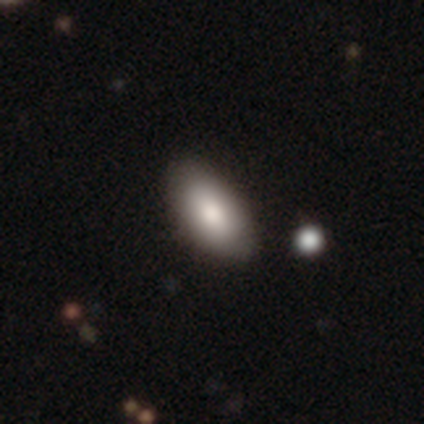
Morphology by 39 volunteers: Smooth or featured: smooth — 85% (featured or disk — 13%)
How rounded: in between — 88% (round — 6%)
Merging: none — 92% (minor disturbance — 8%)